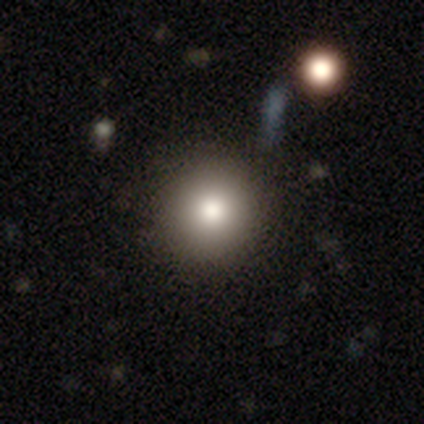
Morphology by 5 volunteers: Q: Smooth or featured?
A: smooth (80%); runner-up: featured or disk (20%)
Q: How rounded?
A: round (100%)
Q: Merging?
A: none (100%)